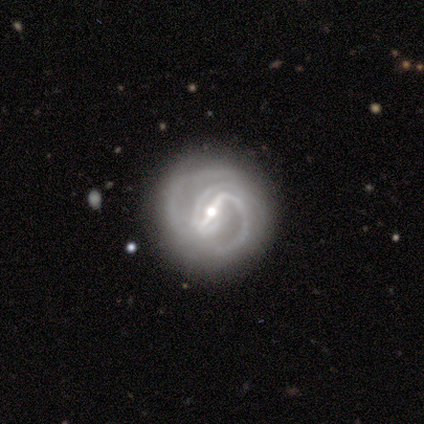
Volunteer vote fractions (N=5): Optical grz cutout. It shows a featured or disk galaxy (100%) with a strong bar (60%), 2 (40%, tied with 3) medium (60%) spiral arms (100%) and a moderate central bulge (60%). Merging: none (80%).